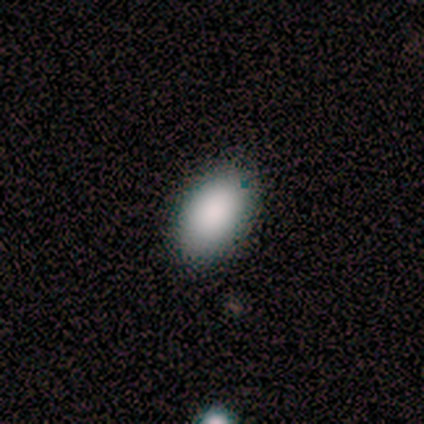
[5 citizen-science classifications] Volunteers were most divided on "smooth or featured": smooth: 60%, star or artifact: 40%, featured or disk: 0%. More confident: how rounded — in between (100%); merging — none (100%).